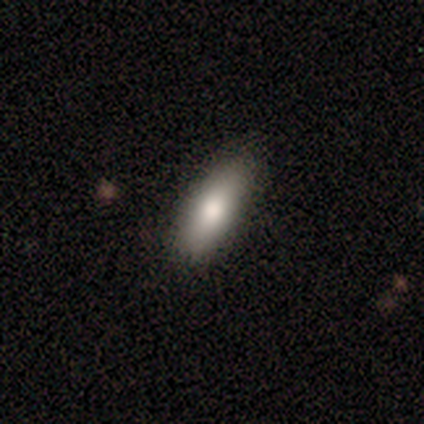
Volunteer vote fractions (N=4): This is clearly a smooth galaxy (100%). How rounded: likely in between (75%). Merging: clearly none (100%).